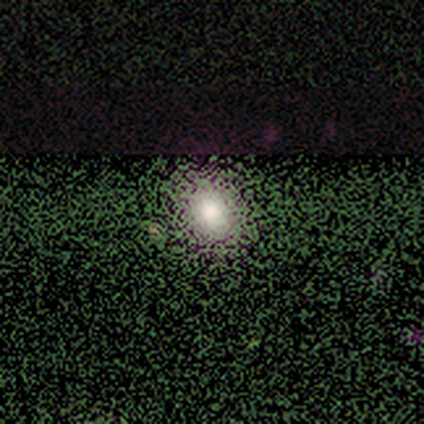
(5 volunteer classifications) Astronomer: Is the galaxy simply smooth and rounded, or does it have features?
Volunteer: smooth — 80%.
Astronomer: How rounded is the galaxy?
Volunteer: in between — 75%.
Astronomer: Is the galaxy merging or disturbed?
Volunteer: none — 75%.